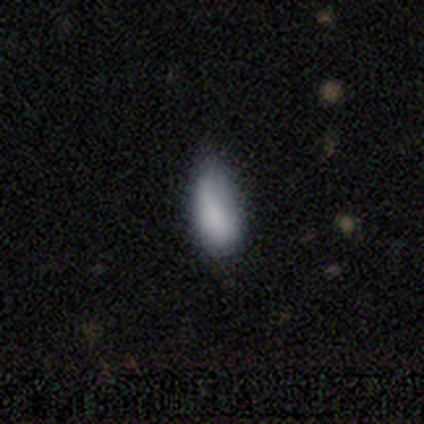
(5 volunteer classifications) Smooth or featured? 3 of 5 (60%) said featured or disk. Edge-on disk? 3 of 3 (100%) said no. Bar? 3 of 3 (100%) said no. Spiral arms? 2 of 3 (67%) said no. Bulge size? 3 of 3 (100%) said moderate. Merging? 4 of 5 (80%) said minor disturbance.